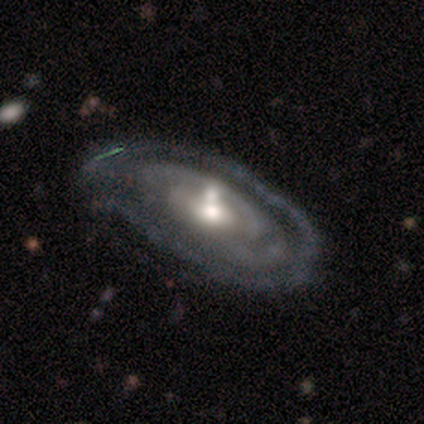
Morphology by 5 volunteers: Smooth or featured? featured or disk (100%)
Edge-on disk? no (80%)
Bar? no (75%)
Spiral arms? yes (75%)
Spiral winding? tight (67%)
Spiral arm count? can't tell (100%)
Bulge size? moderate (100%)
Merging? none (60%)